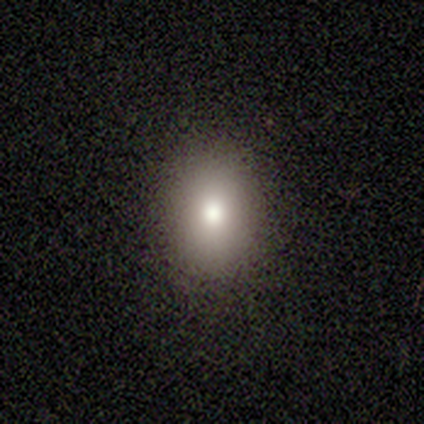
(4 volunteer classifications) This appears to be a smooth galaxy with no disk features (100%) that is round (50%, tied with in between). Merging: none (100%).